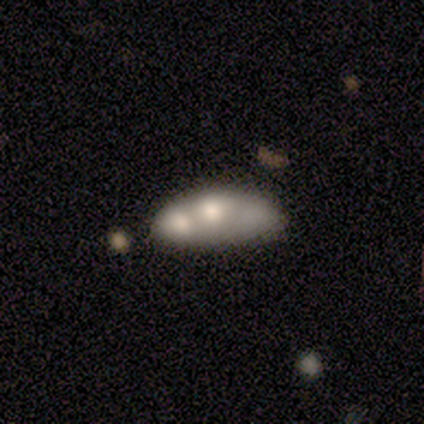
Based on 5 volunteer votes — A smooth galaxy with no disk features (60%) that is round (33%, tied with in between and cigar-shaped). Merging: merger (60%).